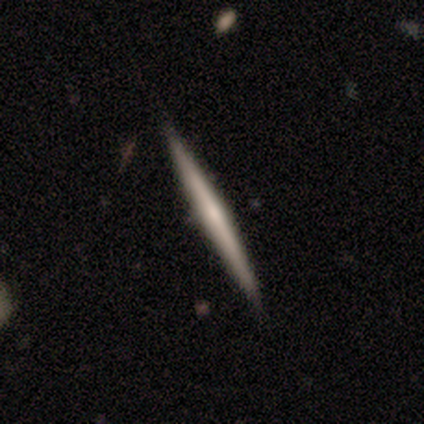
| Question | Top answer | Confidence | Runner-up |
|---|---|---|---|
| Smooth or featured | smooth | 60% | featured or disk (40%) |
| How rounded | cigar-shaped | 100% | — |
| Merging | none | 100% | — |